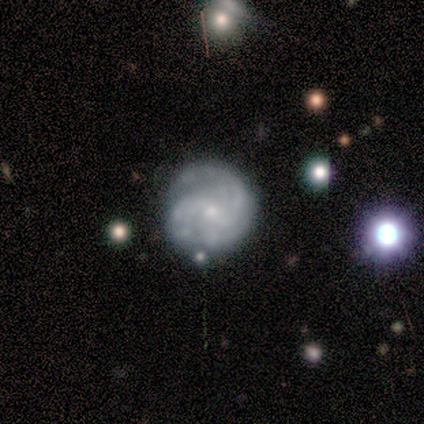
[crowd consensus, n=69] Smooth or featured?
  - featured or disk: 86% *
  - smooth: 12%
  - star or artifact: 3%
Edge-on disk?
  - no: 98% *
  - yes: 2%
Bar?
  - no: 55% *
  - weak: 43%
  - strong: 2%
Spiral arms?
  - yes: 93% *
  - no: 7%
Spiral winding?
  - medium: 50% *
  - tight: 41%
  - loose: 9%
Spiral arm count?
  - 3: 46% *
  - 2: 28%
  - can't tell: 17%
  - 4: 6%
  - more than 4: 4%
  - 1: 0%
Bulge size?
  - small: 78% *
  - moderate: 21%
  - none: 2%
  - dominant: 0%
  - large: 0%
Merging?
  - none: 73% *
  - minor disturbance: 19%
  - major disturbance: 4%
  - merger: 3%